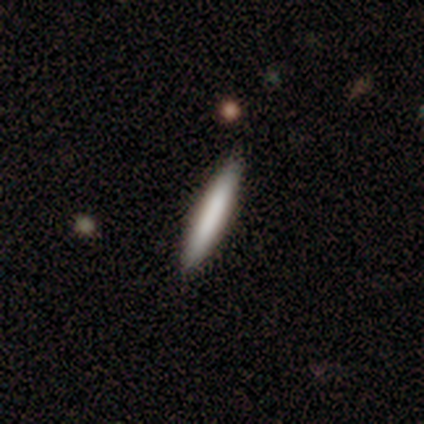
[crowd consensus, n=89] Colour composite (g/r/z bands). It shows a smooth galaxy with no disk features (71%) that is cigar-shaped (95%). Merging: none (88%).